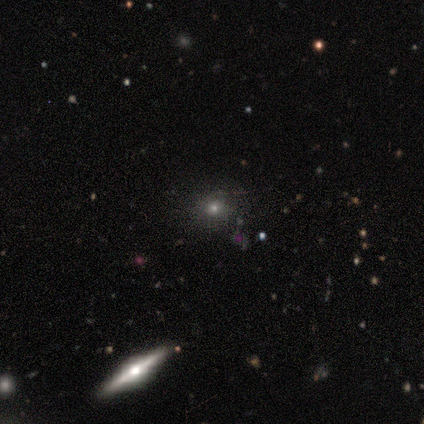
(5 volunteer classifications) smooth 40% (tied), star or artifact 40% (tied), featured or disk 20%. Down the decision tree: how rounded — round (100%); merging — none (67%).